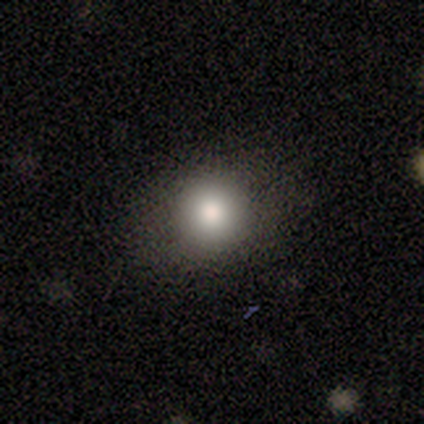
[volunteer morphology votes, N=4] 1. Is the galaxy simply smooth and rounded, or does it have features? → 100% smooth, 0% featured or disk, 0% star or artifact.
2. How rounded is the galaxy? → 100% round, 0% in between, 0% cigar-shaped.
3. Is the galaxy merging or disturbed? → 75% none, 25% major disturbance, 0% minor disturbance, 0% merger.